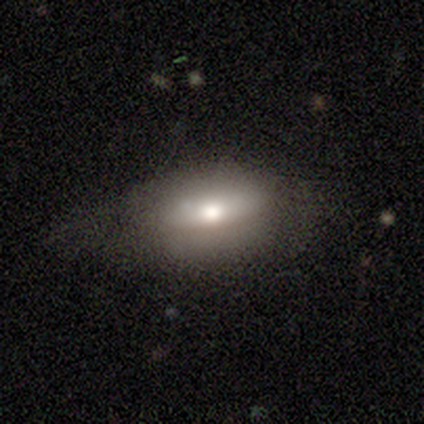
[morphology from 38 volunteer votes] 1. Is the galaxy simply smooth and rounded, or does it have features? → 58% smooth, 39% featured or disk, 3% star or artifact.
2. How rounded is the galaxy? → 77% in between, 23% cigar-shaped, 0% round.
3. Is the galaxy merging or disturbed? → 59% none, 27% minor disturbance, 14% major disturbance, 0% merger.